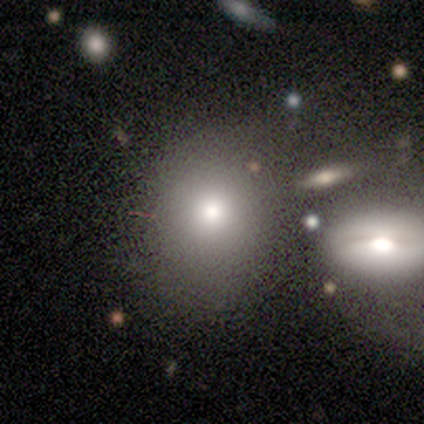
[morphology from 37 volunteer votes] A smooth galaxy with no disk features (68%) that is in between round and cigar-shaped (56%).

Vote fractions:
- Smooth or featured? smooth: 68% / featured or disk: 16% / star or artifact: 16%
- How rounded? in between: 56% / round: 44% / cigar-shaped: 0%
- Merging? none: 45% / minor disturbance: 29% / merger: 19% / major disturbance: 6%